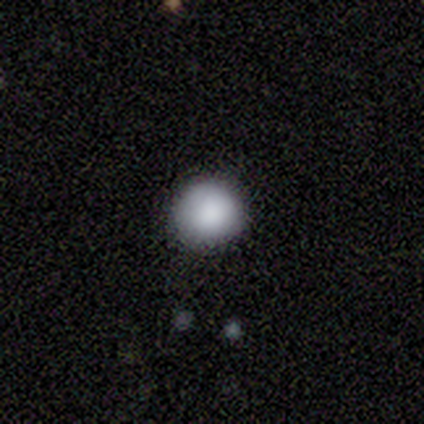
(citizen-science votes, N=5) A smooth galaxy with no disk features (100%) that is round (100%). Merging: none (100%).